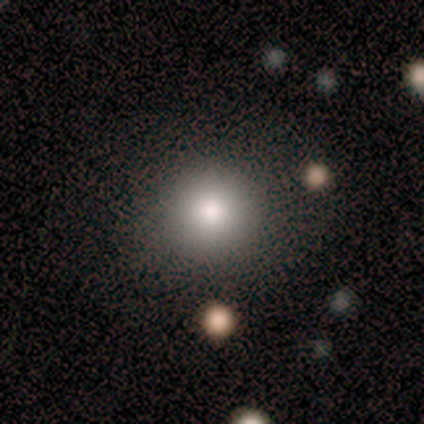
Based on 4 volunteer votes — Morphology: type=smooth (100%); roundness=round (75%); merging=none (100%).